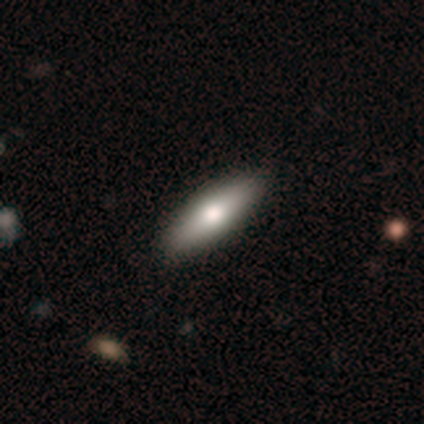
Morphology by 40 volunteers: Volunteers were most divided on "how rounded": in between: 52%, cigar-shaped: 48%, round: 0%. More confident: merging — none (67%); smooth or featured — smooth (62%).